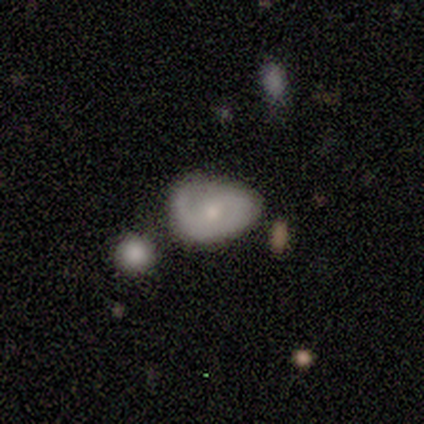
Smooth or featured: smooth — 60% (featured or disk — 40%)
How rounded: in between — 67% (round — 33%)
Merging: none — 50% (tied with minor disturbance — 50%)